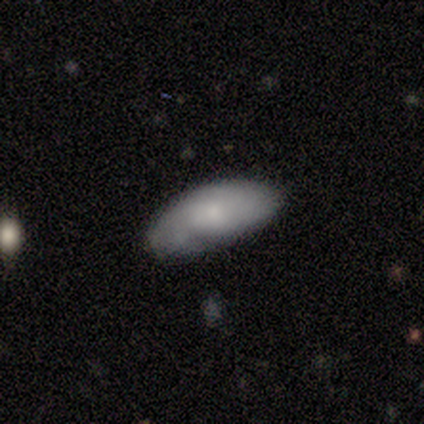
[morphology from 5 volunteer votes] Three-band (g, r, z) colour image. It shows a smooth galaxy with no disk features (60%) that is in between round and cigar-shaped (100%). Merging: none (80%).